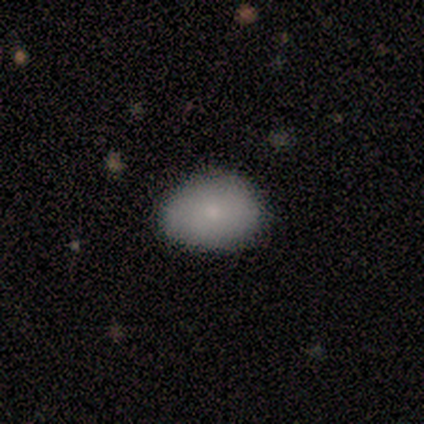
Smooth or featured? smooth (100%)
How rounded? in between (100%)
Merging? none (80%)